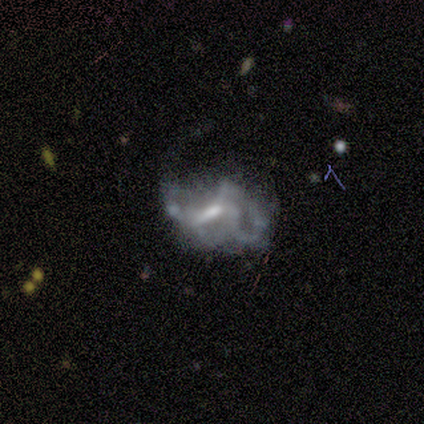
smooth_or_featured: featured or disk (p=0.71) [alt: smooth p=0.14]
disk_edge_on: no (p=1.00)
bar: weak (p=0.80) [alt: strong p=0.20]
has_spiral_arms: yes (p=0.80) [alt: no p=0.20]
spiral_winding: loose (p=0.75) [alt: medium p=0.25]
spiral_arm_count: 2 (p=0.50) [tied with: 4 p=0.50]
bulge_size: moderate (p=0.80) [alt: small p=0.20]
merging: major disturbance (p=0.83) [alt: minor disturbance p=0.17]